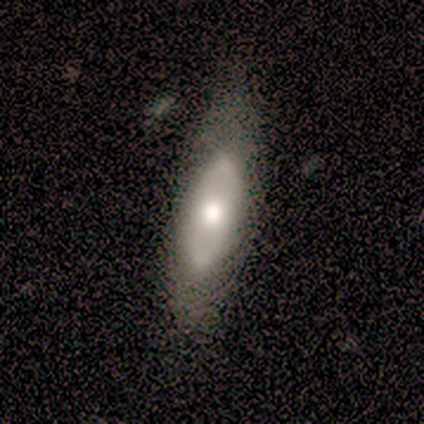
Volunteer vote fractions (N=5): Smooth or featured?
  - featured or disk: 80% *
  - smooth: 20%
  - star or artifact: 0%
Edge-on disk?
  - no: 100% *
  - yes: 0%
Bar?
  - no: 100% *
  - strong: 0%
  - weak: 0%
Spiral arms?
  - no: 75% *
  - yes: 25%
Bulge size?
  - moderate: 75% *
  - large: 25%
  - dominant: 0%
  - small: 0%
  - none: 0%
Merging?
  - none: 60% *
  - minor disturbance: 40%
  - major disturbance: 0%
  - merger: 0%